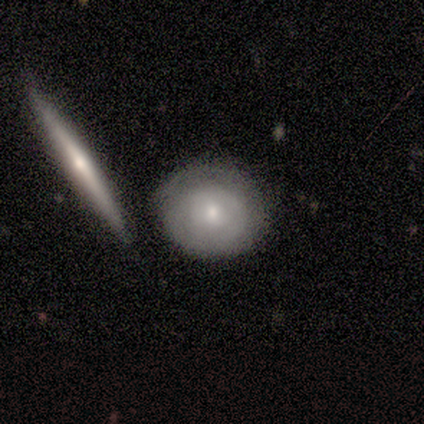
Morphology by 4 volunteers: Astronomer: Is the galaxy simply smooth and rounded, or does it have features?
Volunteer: smooth — 50%, tied with featured or disk at 50%.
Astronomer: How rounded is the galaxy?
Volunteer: round — 100%.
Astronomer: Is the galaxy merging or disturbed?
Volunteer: none — 50%.